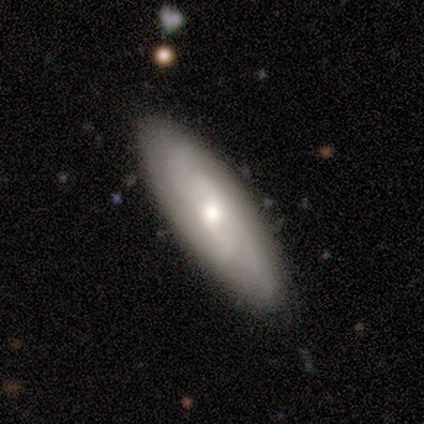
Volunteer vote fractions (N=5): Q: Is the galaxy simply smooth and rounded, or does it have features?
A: smooth — 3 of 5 (60%).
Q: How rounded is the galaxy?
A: cigar-shaped — 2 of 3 (67%).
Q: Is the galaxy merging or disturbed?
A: none — 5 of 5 (100%).